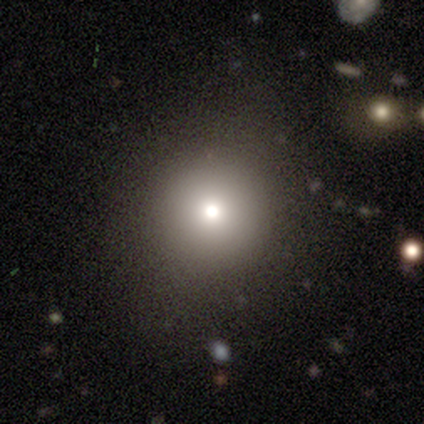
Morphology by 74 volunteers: A smooth galaxy with no disk features (82%) that is round (98%).

Vote fractions:
- Smooth or featured? smooth: 82% / star or artifact: 12% / featured or disk: 5%
- How rounded? round: 98% / in between: 2% / cigar-shaped: 0%
- Merging? none: 51% / major disturbance: 3% / minor disturbance: 2% / merger: 0%